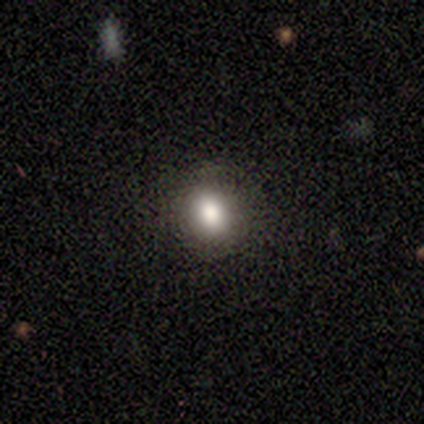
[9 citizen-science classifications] Q: Smooth or featured?
A: smooth (100%)
Q: How rounded?
A: round (67%); runner-up: in between (33%)
Q: Merging?
A: none (100%)